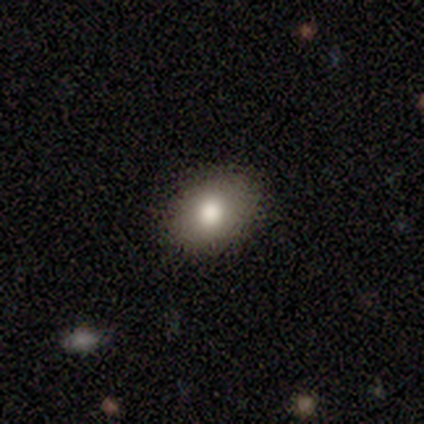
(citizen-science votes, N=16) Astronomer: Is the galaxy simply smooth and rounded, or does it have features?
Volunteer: smooth — 81%.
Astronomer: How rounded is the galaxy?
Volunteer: in between — 54% (runner-up: round, 46%).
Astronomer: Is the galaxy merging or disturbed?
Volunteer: none — 100%.